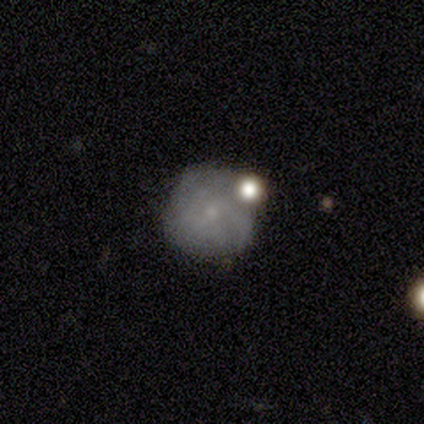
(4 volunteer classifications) This is possibly a smooth galaxy (50%, tied with featured or disk). How rounded: clearly round (100%). Merging: likely none (75%).